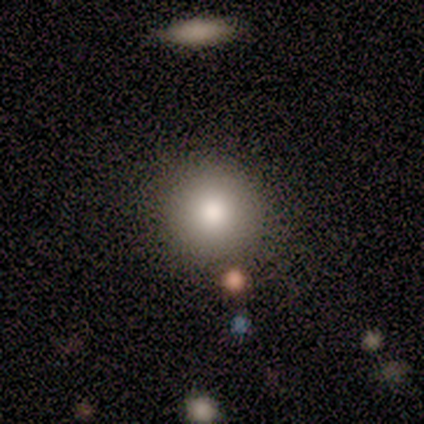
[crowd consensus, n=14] A smooth galaxy with no disk features (86%) that is round (83%). Merging: none (69%).